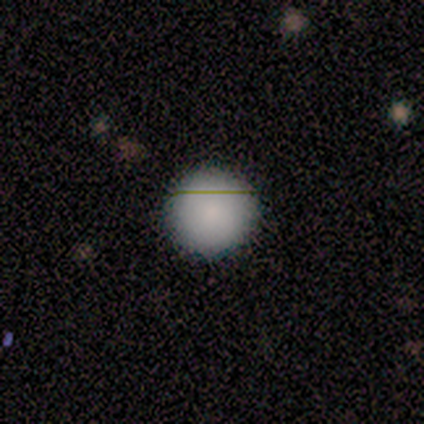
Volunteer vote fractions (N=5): Smooth or featured? smooth (100%)
How rounded? round (100%)
Merging? none (100%)